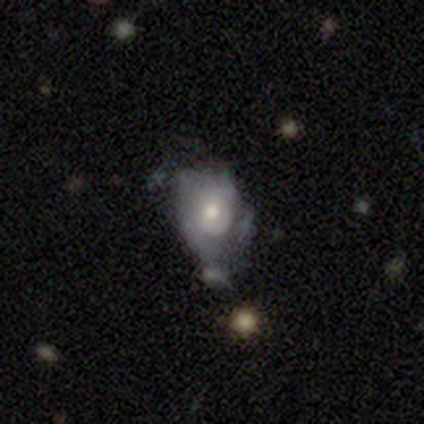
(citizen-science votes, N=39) Overall: featured or disk (64%; smooth 26%). Edge-on disk: no (92%). Bar: no (83%). Spiral arms: no (52%; yes 48%). Bulge size: moderate (70%). Merging: minor disturbance (43%; none 31%).